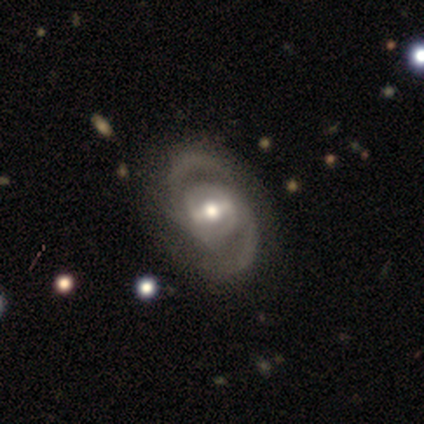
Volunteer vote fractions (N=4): featured or disk 100%, smooth 0%, star or artifact 0%. Down the decision tree: edge-on disk — no (100%); bar — strong (75%); spiral arms — yes (100%); spiral arm count — 2 (100%); spiral winding — tight (50%); bulge size — large (50%); merging — none (75%).